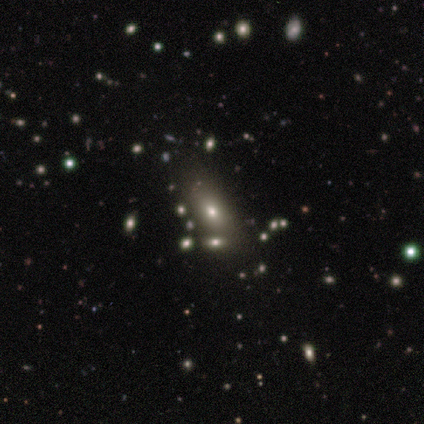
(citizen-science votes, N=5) Smooth or featured: smooth — 60% (featured or disk — 20%)
How rounded: in between — 67% (cigar-shaped — 33%)
Merging: none — 50% (major disturbance — 25%)